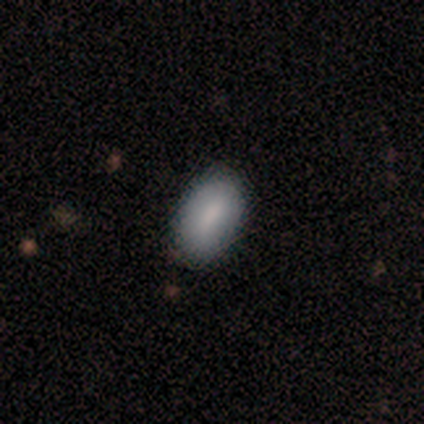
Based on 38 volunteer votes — Smooth or featured? smooth (84%)
How rounded? in between (94%)
Merging? none (86%)